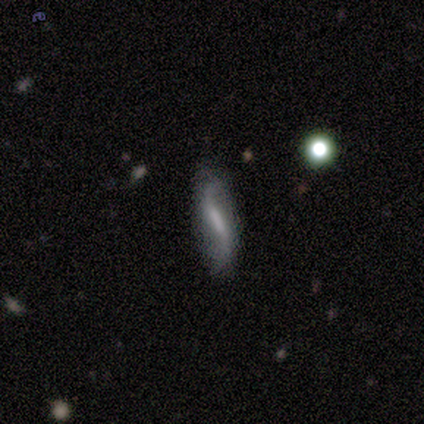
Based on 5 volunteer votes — Smooth or featured? 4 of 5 (80%) said featured or disk. Edge-on disk? 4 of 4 (100%) said no. Bar? 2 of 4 (50%) said weak. Spiral arms? 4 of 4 (100%) said yes. Spiral winding? 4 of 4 (100%) said loose. Spiral arm count? 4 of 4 (100%) said 2. Bulge size? 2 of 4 (50%) said moderate. Merging? 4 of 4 (100%) said none.